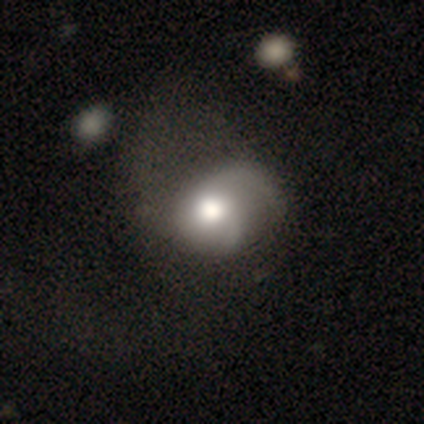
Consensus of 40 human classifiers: featured or disk 62%, smooth 35%, star or artifact 2%. Down the decision tree: edge-on disk — no (100%); bar — no (92%); spiral arms — yes (96%); spiral arm count — 2 (54%); spiral winding — loose (54%); bulge size — moderate (52%); merging — major disturbance (41%).